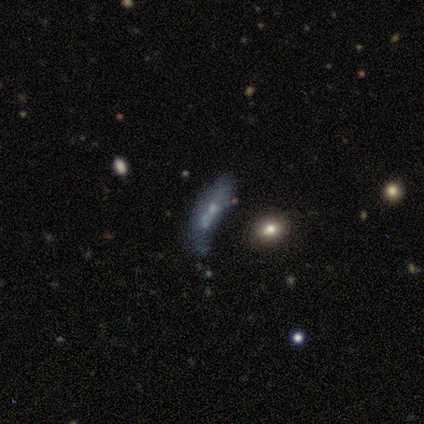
smooth_or_featured: smooth (p=0.40) [tied with: featured or disk p=0.40]
how_rounded: in between (p=0.50) [tied with: cigar-shaped p=0.50]
merging: merger (p=0.50) [alt: none p=0.25]